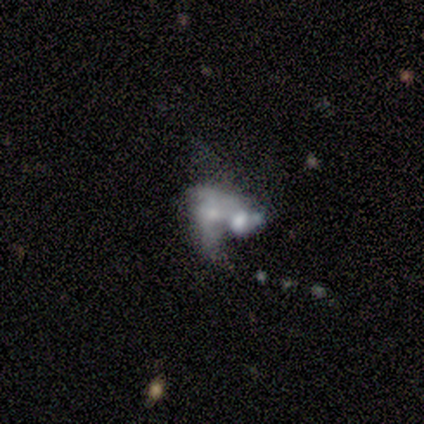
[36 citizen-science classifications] This appears to be a featured or disk galaxy (61%) with no bar (95%), no spiral arms (71%) and a moderate central bulge (43%). Merging: merger (75%).